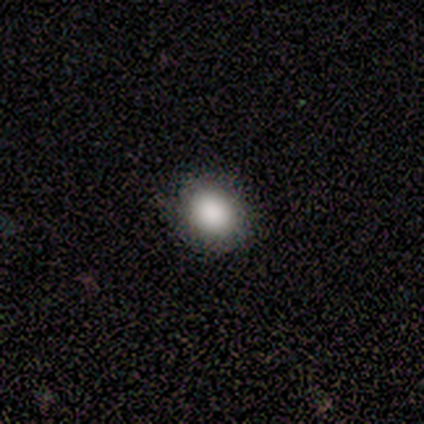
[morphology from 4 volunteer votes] Volunteers were most divided on "how rounded" (2-way tie): round: 50%, in between: 50%, cigar-shaped: 0%. More confident: smooth or featured — smooth (100%); merging — none (100%).